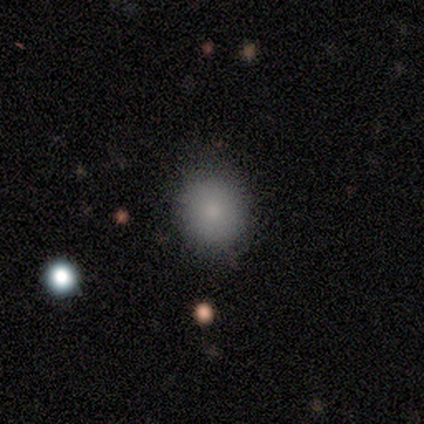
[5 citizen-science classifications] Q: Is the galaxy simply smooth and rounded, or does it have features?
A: smooth — 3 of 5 (60%).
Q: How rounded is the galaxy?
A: round — 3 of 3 (100%).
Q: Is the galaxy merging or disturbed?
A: none — 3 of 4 (75%).